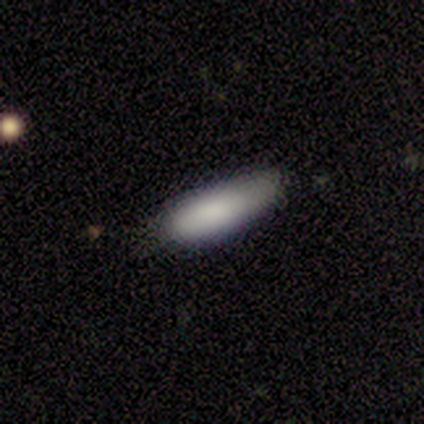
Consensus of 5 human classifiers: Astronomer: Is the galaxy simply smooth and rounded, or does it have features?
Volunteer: smooth — 80%.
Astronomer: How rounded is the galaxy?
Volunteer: in between — 75%.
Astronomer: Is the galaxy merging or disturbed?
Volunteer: none — 40%, tied with minor disturbance at 40%.